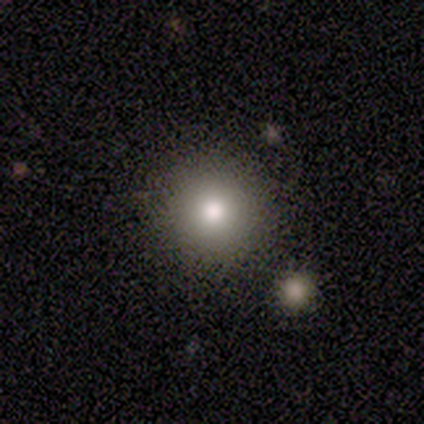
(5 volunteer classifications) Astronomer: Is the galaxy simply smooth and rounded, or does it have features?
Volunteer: smooth — 60%.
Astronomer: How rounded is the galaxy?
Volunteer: round — 100%.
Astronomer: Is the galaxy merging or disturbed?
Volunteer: none — 100%.